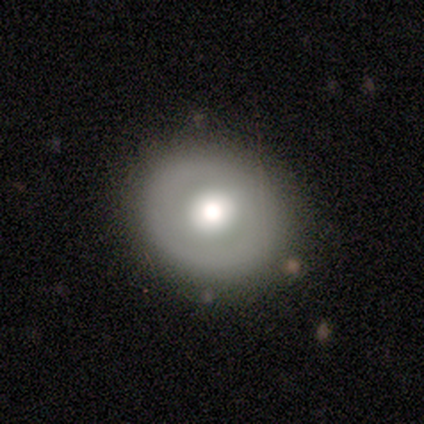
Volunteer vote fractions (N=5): Morphology: type=smooth (60%); roundness=round (67%); merging=none (40%, tied with major disturbance).